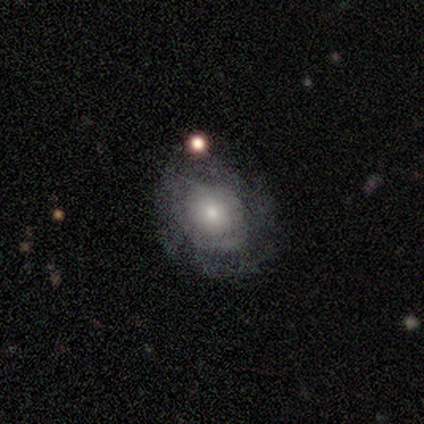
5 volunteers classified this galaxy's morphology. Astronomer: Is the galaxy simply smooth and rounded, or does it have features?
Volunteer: featured or disk — 60% (runner-up: smooth, 40%).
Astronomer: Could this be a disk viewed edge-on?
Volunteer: no — 100%.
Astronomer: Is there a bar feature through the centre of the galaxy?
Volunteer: no — 67%.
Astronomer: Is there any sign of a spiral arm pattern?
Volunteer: no — 67%.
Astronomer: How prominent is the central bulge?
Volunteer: small — 67%.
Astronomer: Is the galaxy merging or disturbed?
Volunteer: none — 40%, tied with minor disturbance at 40%.